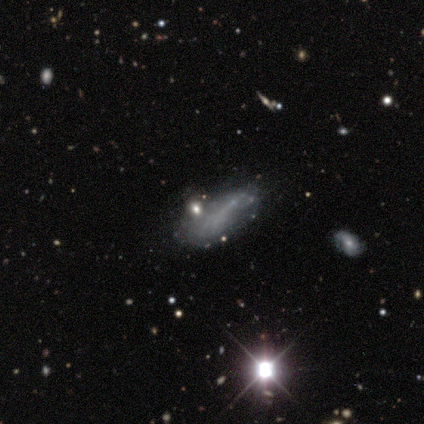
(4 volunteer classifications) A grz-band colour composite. It shows a smooth galaxy with no disk features (75%) that is in between round and cigar-shaped (67%). Merging: major disturbance (100%).